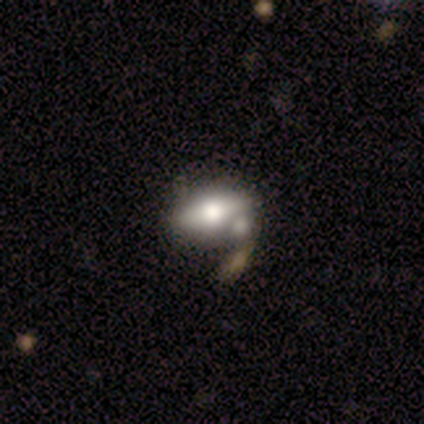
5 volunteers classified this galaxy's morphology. This appears to be a featured or disk galaxy (60%) with no bar (100%), no spiral arms (100%) and a large central bulge (50%, tied with small). Merging: none (75%).